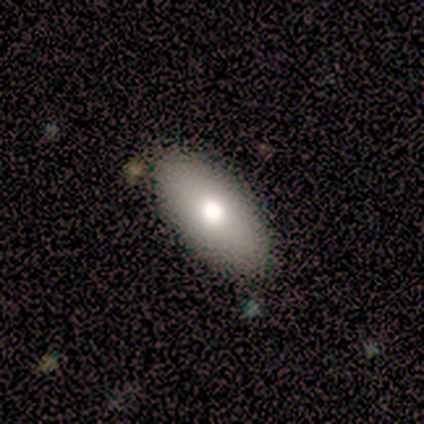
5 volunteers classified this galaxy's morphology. smooth 100%, featured or disk 0%, star or artifact 0%. Down the decision tree: how rounded — in between (100%); merging — none (100%).